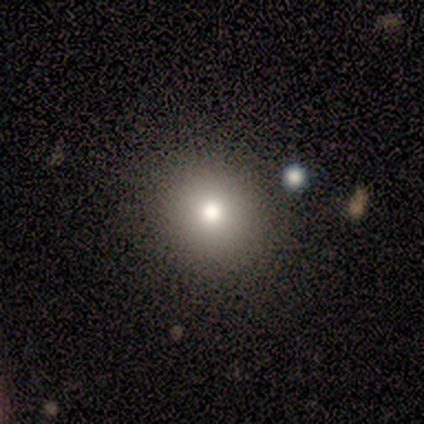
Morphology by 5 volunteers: Q: Smooth or featured?
A: smooth (60%); runner-up: star or artifact (40%)
Q: How rounded?
A: round (100%)
Q: Merging?
A: none (67%); runner-up: major disturbance (33%)